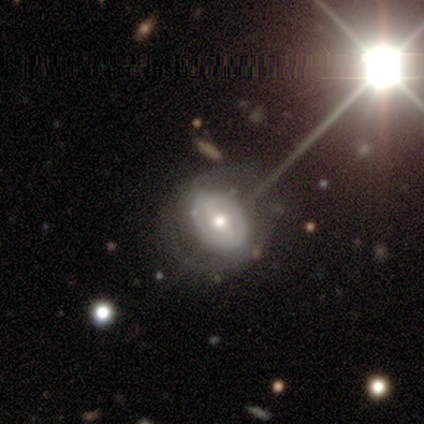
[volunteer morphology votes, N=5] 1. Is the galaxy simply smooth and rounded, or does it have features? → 80% featured or disk, 20% smooth, 0% star or artifact.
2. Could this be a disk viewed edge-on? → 100% no, 0% yes.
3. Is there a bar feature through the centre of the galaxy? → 75% weak, 25% strong, 0% no.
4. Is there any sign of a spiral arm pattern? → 75% yes, 25% no.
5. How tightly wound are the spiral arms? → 100% tight, 0% medium, 0% loose.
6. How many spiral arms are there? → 67% 2, 33% can't tell, 0% 1, 0% 3, 0% 4, 0% more than 4.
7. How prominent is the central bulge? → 100% moderate, 0% dominant, 0% large, 0% small, 0% none.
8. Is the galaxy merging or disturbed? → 80% none, 20% minor disturbance, 0% major disturbance, 0% merger.